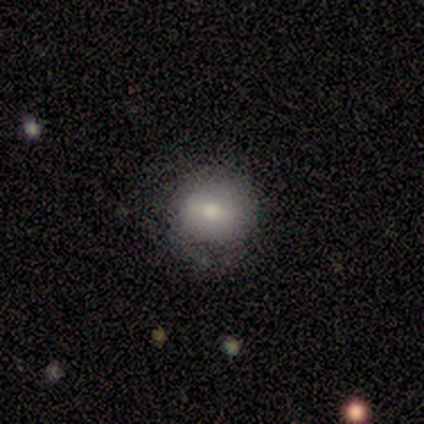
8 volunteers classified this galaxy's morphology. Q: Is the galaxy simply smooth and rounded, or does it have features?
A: smooth — 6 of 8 (75%).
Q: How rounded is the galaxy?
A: round — 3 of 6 (50%, tied with in between).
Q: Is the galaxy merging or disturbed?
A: none — 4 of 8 (50%).